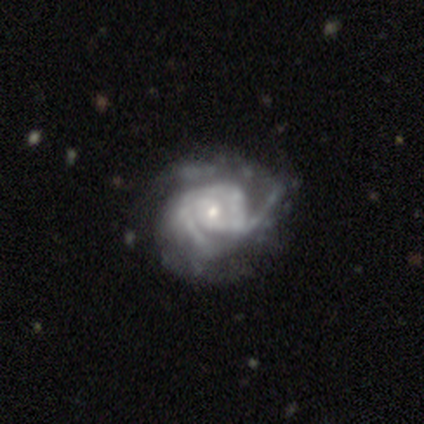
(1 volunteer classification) Morphology: type=featured or disk (100%); edge-on=no (100%); bar=no (100%); spiral arms=yes (100%); winding=medium (100%); arm count=1 (100%); bulge=small (100%); merging=none (100%).